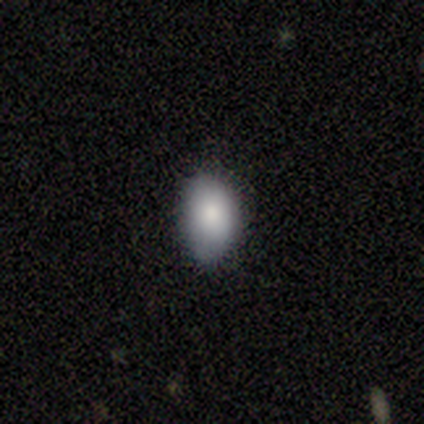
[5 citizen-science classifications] A smooth galaxy with no disk features (100%) that is in between round and cigar-shaped (80%). Merging: none (60%).